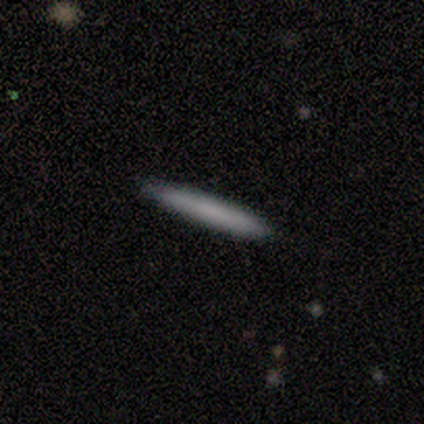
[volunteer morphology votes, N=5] type=smooth (100%); roundness=cigar-shaped (100%); merging=none (100%).